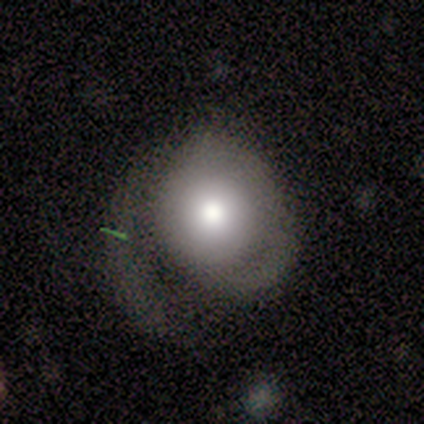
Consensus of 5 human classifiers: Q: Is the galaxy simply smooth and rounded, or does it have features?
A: smooth — 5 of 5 (100%).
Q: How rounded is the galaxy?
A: in between — 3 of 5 (60%).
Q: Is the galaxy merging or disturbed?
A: minor disturbance — 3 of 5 (60%).